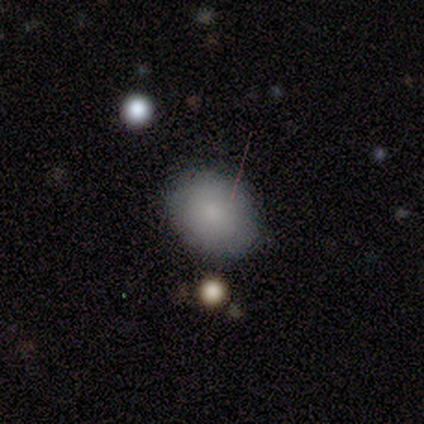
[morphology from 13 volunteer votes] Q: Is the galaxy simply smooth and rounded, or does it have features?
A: smooth — 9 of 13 (69%).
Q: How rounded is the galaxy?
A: in between — 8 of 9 (89%).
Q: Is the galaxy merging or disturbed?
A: none — 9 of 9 (100%).